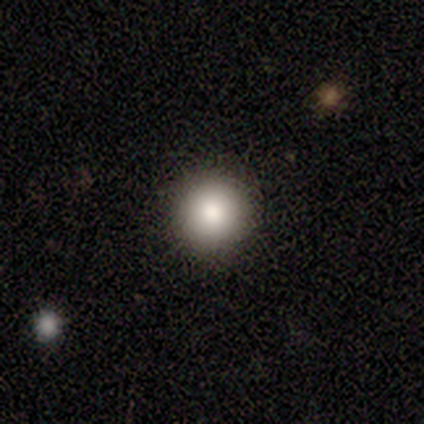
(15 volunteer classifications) smooth-or-featured: smooth: 87% | featured or disk: 7% | star or artifact: 7%
  how-rounded: round: 85% | in between: 15% | cigar-shaped: 0%
  merging: none: 100% | minor disturbance: 0% | major disturbance: 0% | merger: 0%